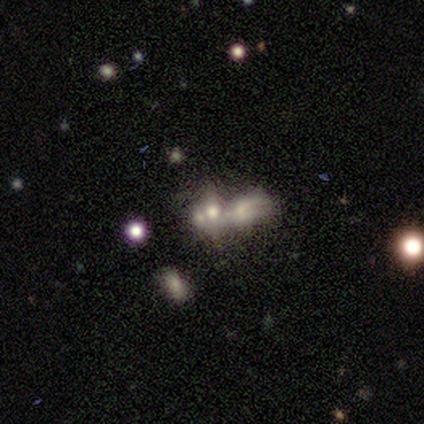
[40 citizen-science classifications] Morphology: type=smooth (50%); roundness=in between (65%); merging=merger (76%).